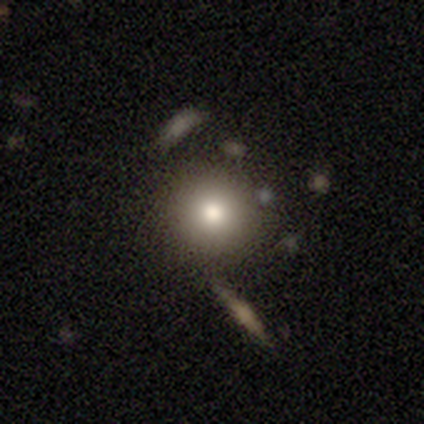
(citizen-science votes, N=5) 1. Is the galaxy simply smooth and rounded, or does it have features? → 80% smooth, 20% featured or disk, 0% star or artifact.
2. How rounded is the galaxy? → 100% round, 0% in between, 0% cigar-shaped.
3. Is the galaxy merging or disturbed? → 100% none, 0% minor disturbance, 0% major disturbance, 0% merger.